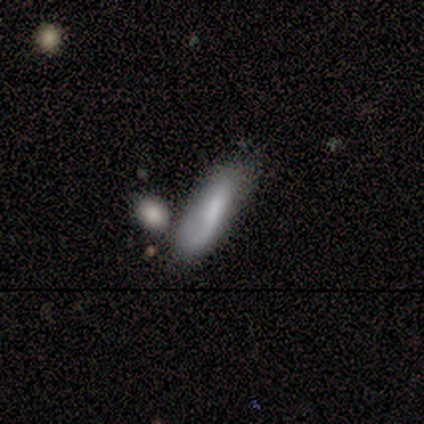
smooth 50% (tied), featured or disk 50% (tied), star or artifact 0%. Down the decision tree: how rounded — cigar-shaped (100%); merging — minor disturbance (33%, tied with merger).